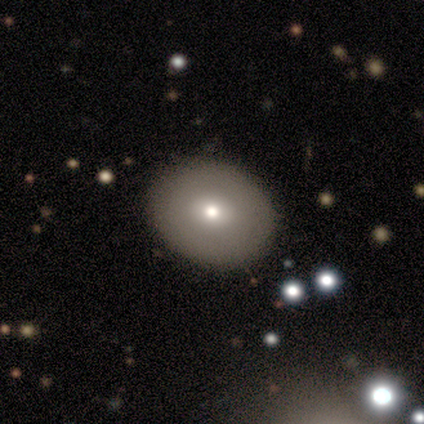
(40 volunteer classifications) smooth 70%, featured or disk 25%, star or artifact 5%. Down the decision tree: how rounded — in between (54%); merging — none (87%).